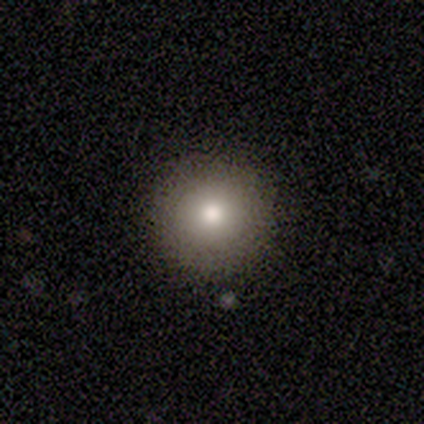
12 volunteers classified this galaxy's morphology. A smooth galaxy with no disk features (92%) that is round (100%).

Vote fractions:
- Smooth or featured? smooth: 92% / star or artifact: 8% / featured or disk: 0%
- How rounded? round: 100% / in between: 0% / cigar-shaped: 0%
- Merging? none: 100% / minor disturbance: 0% / major disturbance: 0% / merger: 0%